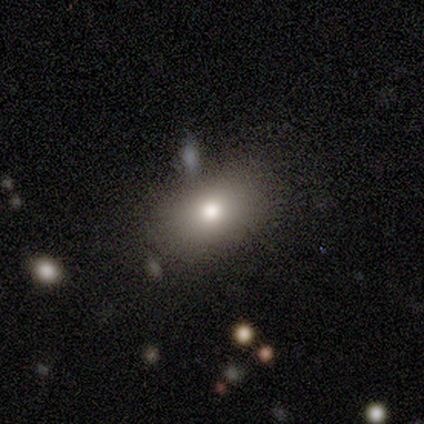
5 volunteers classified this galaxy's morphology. Overall: smooth (80%). How rounded: in between (75%). Merging: minor disturbance (60%; none 20%).